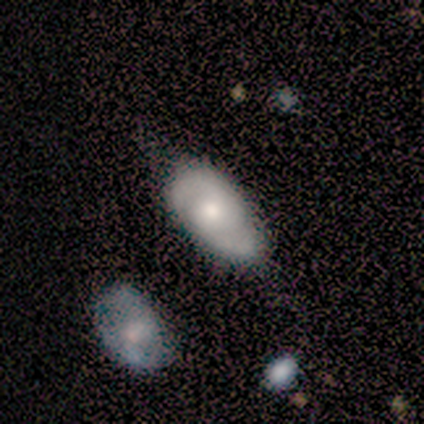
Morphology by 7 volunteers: Smooth or featured: featured or disk — 71% (smooth — 14%)
Edge-on disk: no — 100%
Bar: weak — 60% (no — 40%)
Spiral arms: yes — 100%
Spiral winding: medium — 60% (tight — 20%)
Spiral arm count: 2 — 100%
Bulge size: moderate — 60% (small — 40%)
Merging: none — 83% (minor disturbance — 17%)